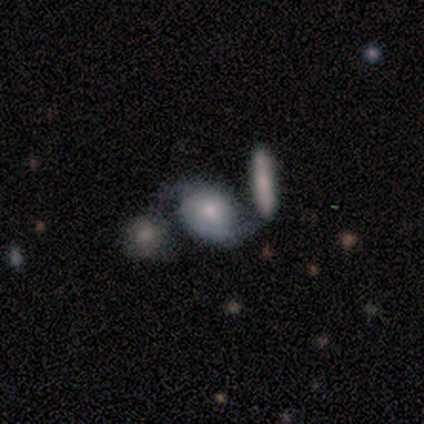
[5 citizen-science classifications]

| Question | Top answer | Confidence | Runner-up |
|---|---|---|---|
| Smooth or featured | featured or disk | 80% | star or artifact (20%) |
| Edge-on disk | no | 100% | — |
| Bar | no | 75% | weak (25%) |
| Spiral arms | yes | 100% | — |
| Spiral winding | loose | 50% | tight (25%) |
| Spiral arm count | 2 | 100% | — |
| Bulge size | small | 75% | moderate (25%) |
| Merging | merger | 50% | none (25%) |